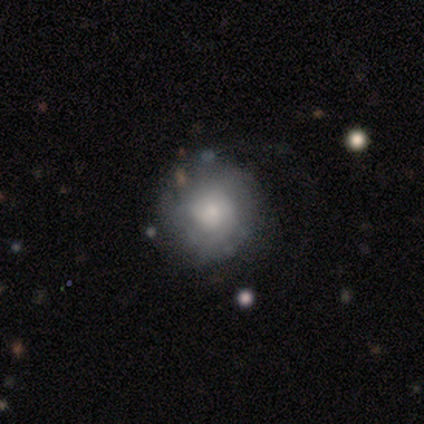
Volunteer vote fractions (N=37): Smooth or featured?
  - featured or disk: 59% *
  - smooth: 38%
  - star or artifact: 3%
Edge-on disk?
  - no: 100% *
  - yes: 0%
Bar?
  - no: 86% *
  - weak: 14%
  - strong: 0%
Spiral arms?
  - yes: 82% *
  - no: 18%
Spiral winding?
  - tight: 56% *
  - medium: 33%
  - loose: 11%
Spiral arm count?
  - can't tell: 56% *
  - 1: 11%
  - 2: 11%
  - 3: 11%
  - more than 4: 11%
  - 4: 0%
Bulge size?
  - small: 45% *
  - moderate: 27%
  - large: 14%
  - none: 9%
  - dominant: 5%
Merging?
  - none: 61% *
  - minor disturbance: 22%
  - major disturbance: 14%
  - merger: 3%